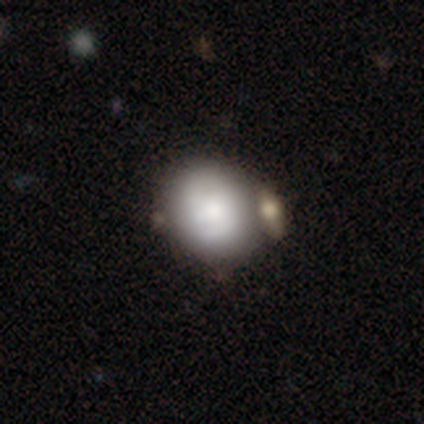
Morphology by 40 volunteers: smooth 57%, featured or disk 42%, star or artifact 0%. Down the decision tree: how rounded — round (70%); merging — none (40%).